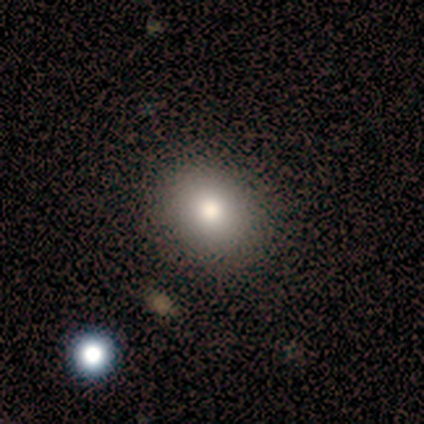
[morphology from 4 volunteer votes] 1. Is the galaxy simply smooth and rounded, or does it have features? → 100% smooth, 0% featured or disk, 0% star or artifact.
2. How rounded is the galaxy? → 50% round (tied), 50% in between (tied), 0% cigar-shaped.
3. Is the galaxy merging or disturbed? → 100% none, 0% minor disturbance, 0% major disturbance, 0% merger.